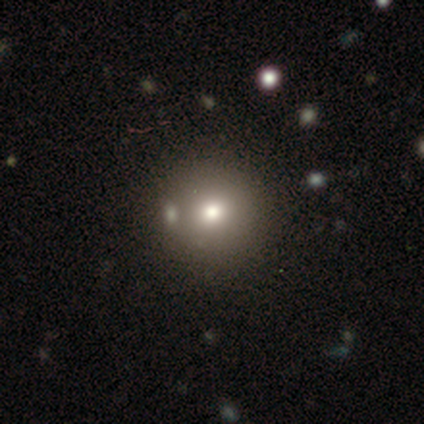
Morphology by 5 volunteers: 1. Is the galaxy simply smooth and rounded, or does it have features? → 80% smooth, 20% star or artifact, 0% featured or disk.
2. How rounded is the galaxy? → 100% round, 0% in between, 0% cigar-shaped.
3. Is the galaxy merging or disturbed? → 75% none, 25% major disturbance, 0% minor disturbance, 0% merger.